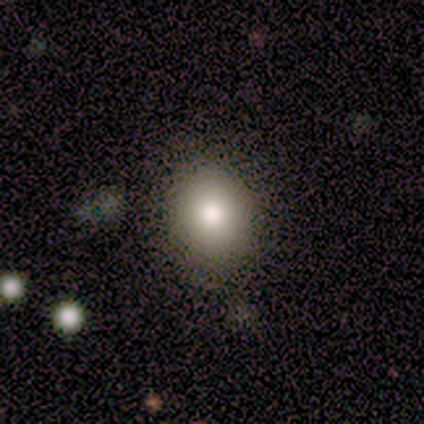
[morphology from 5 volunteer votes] This is clearly a smooth galaxy (80%). How rounded: likely in between (75%). Merging: likely none (75%).